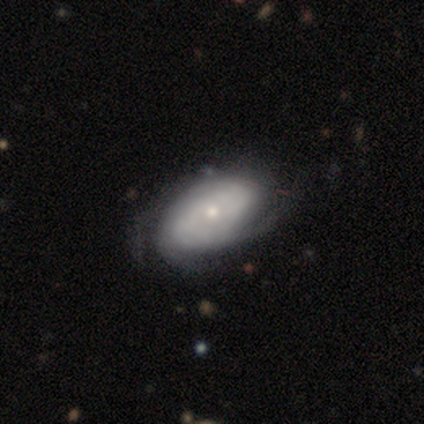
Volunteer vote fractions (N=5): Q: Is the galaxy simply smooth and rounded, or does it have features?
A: featured or disk — 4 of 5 (80%).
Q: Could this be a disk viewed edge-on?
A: no — 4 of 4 (100%).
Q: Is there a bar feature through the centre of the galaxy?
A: no — 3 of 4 (75%).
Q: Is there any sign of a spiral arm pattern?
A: yes — 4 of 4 (100%).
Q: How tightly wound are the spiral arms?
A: tight — 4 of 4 (100%).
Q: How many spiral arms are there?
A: can't tell — 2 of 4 (50%).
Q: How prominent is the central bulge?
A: small — 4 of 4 (100%).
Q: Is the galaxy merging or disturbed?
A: none — 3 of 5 (60%).